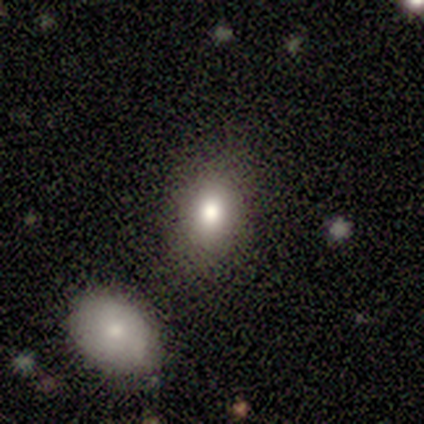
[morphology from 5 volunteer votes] A smooth galaxy with no disk features (100%) that is round (80%). Merging: none (80%).